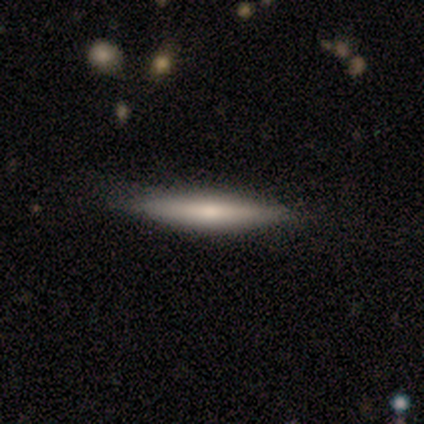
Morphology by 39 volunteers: Smooth or featured? 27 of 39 (69%) said smooth. How rounded? 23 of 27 (85%) said cigar-shaped. Merging? 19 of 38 (50%) said none.